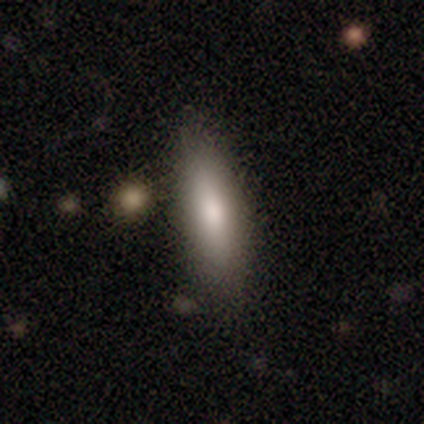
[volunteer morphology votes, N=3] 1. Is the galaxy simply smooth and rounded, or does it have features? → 100% smooth, 0% featured or disk, 0% star or artifact.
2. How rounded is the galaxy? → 67% cigar-shaped, 33% in between, 0% round.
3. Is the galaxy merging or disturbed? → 100% none, 0% minor disturbance, 0% major disturbance, 0% merger.